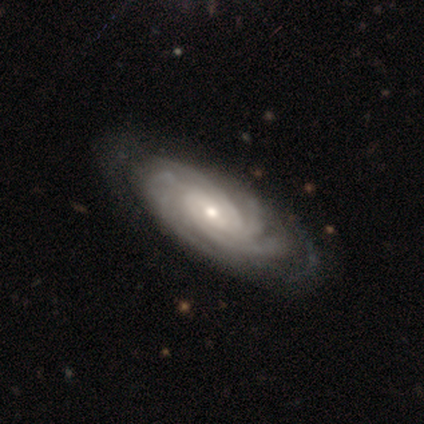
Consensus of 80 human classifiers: Smooth or featured? featured or disk (90%)
Edge-on disk? no (92%)
Bar? no (56%)
Spiral arms? yes (100%)
Spiral winding? tight (74%)
Spiral arm count? 4 (38%)
Bulge size? small (58%)
Merging? none (44%)